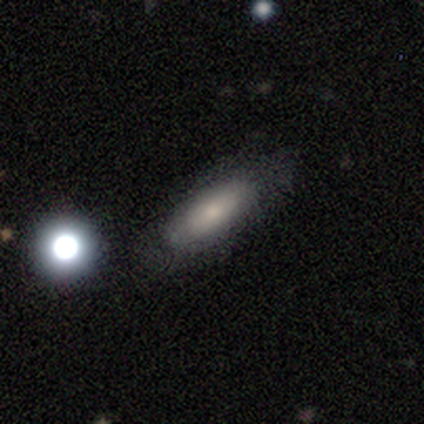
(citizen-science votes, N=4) Smooth or featured: smooth — 75% (featured or disk — 25%)
How rounded: cigar-shaped — 67% (in between — 33%)
Merging: none — 100%